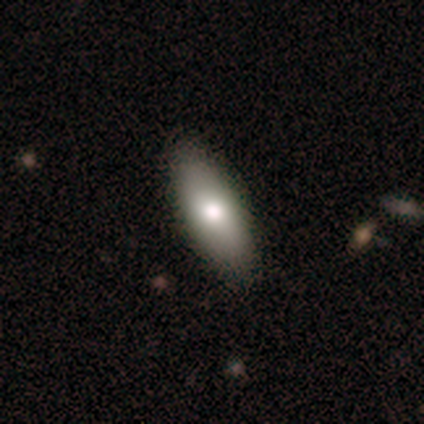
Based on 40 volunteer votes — Smooth or featured? smooth (75%)
How rounded? in between (80%)
Merging? none (85%)